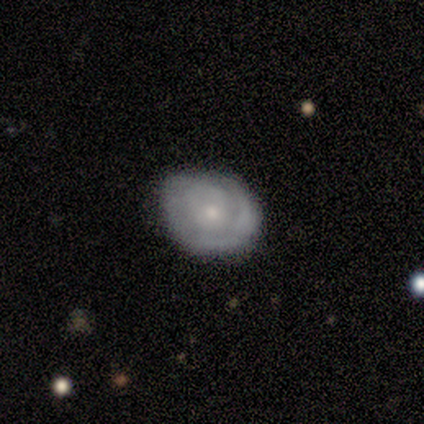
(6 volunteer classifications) Overall: featured or disk (67%). Edge-on disk: no (100%). Bar: no (100%). Spiral arms: yes (75%). Spiral arm count: can't tell (100%). Spiral winding: tight (100%). Bulge size: small (100%). Merging: none (80%).